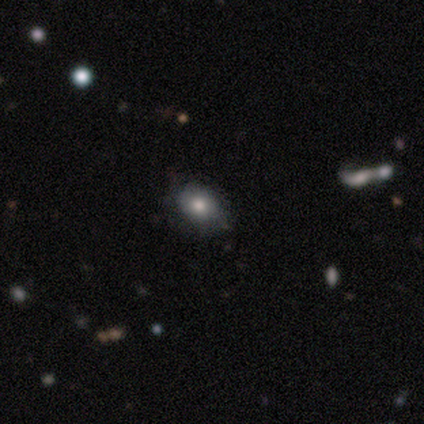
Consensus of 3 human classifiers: Smooth or featured? 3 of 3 (100%) said smooth. How rounded? 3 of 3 (100%) said in between. Merging? 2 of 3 (67%) said none.